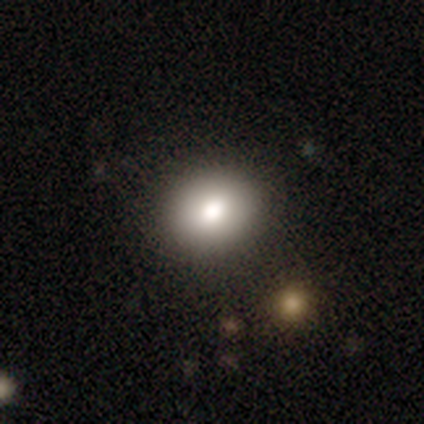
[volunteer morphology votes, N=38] A smooth galaxy with no disk features (76%) that is round (66%). Merging: none (80%).